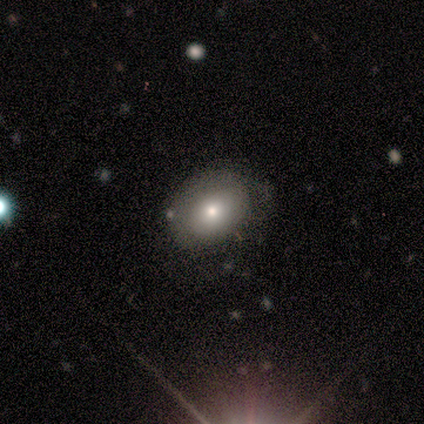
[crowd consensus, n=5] Smooth or featured? 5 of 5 (100%) said smooth. How rounded? 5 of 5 (100%) said in between. Merging? 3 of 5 (60%) said minor disturbance.